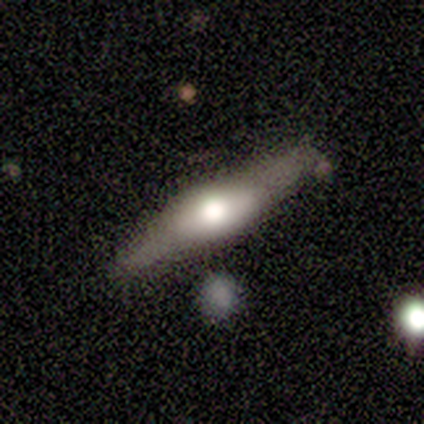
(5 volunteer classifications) This is marginally a smooth galaxy (40%, tied with featured or disk). How rounded: possibly in between (50%, tied with cigar-shaped). Merging: possibly none (50%).